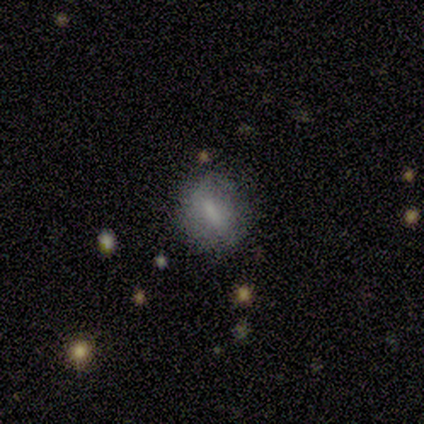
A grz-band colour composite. It shows a smooth galaxy with no disk features (74%) that is round (54%). Merging: none (76%).